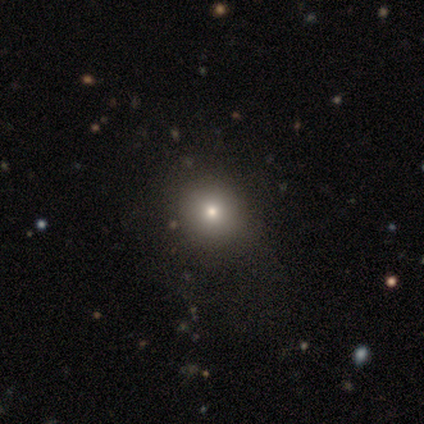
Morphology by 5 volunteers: Q: Smooth or featured?
A: smooth (80%); runner-up: star or artifact (20%)
Q: How rounded?
A: round (100%)
Q: Merging?
A: none (50%); runner-up: minor disturbance (25%)